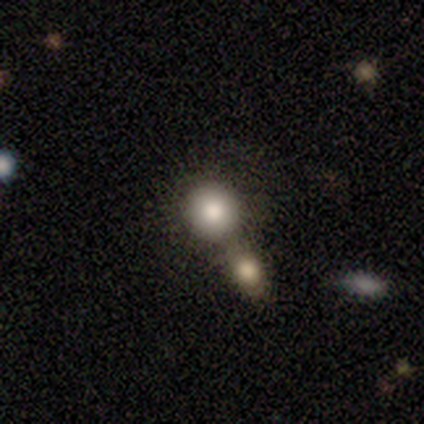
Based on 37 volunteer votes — Volunteers were most divided on "merging": merger: 61%, none: 33%, minor disturbance: 6%, major disturbance: 0%. More confident: how rounded — round (91%); smooth or featured — smooth (89%).